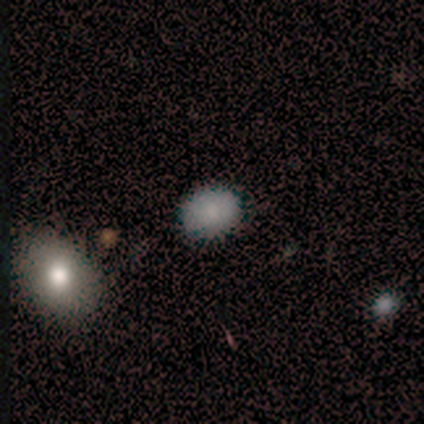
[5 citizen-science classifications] Smooth or featured: smooth — 80% (star or artifact — 20%)
How rounded: round — 75% (in between — 25%)
Merging: none — 100%